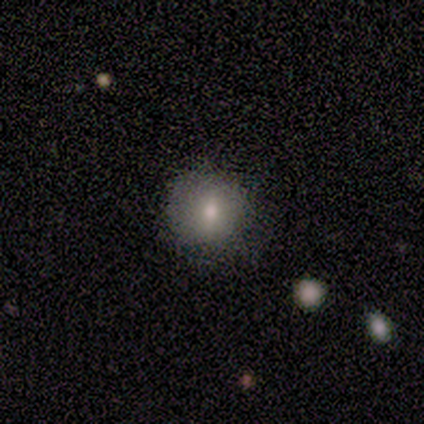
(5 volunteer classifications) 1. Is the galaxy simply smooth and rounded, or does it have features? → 80% smooth, 20% featured or disk, 0% star or artifact.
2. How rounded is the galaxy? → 100% round, 0% in between, 0% cigar-shaped.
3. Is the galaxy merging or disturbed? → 100% none, 0% minor disturbance, 0% major disturbance, 0% merger.